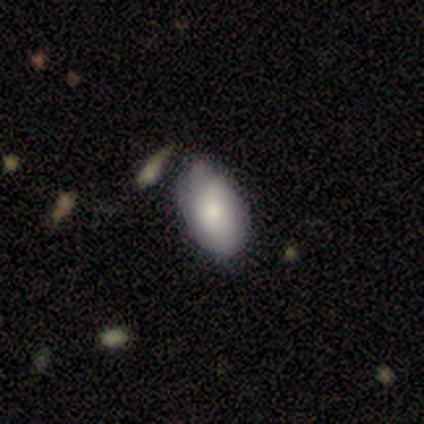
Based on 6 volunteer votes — A smooth galaxy with no disk features (83%) that is in between round and cigar-shaped (100%). Merging: none (67%).